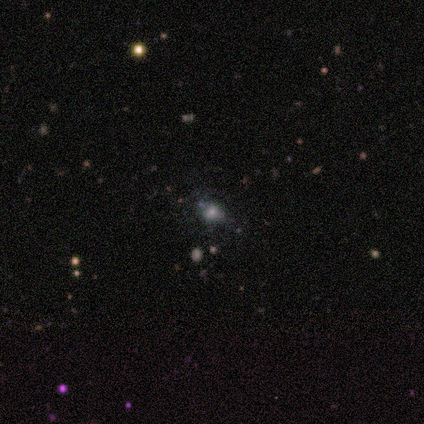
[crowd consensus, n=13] A smooth galaxy with no disk features (69%) that is round (67%).

Vote fractions:
- Smooth or featured? smooth: 69% / featured or disk: 15% / star or artifact: 15%
- How rounded? round: 67% / in between: 33% / cigar-shaped: 0%
- Merging? none: 64% / minor disturbance: 18% / major disturbance: 18% / merger: 0%